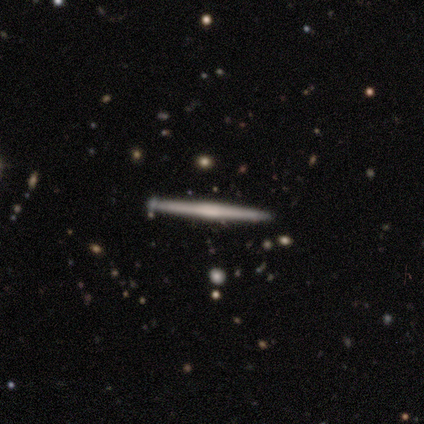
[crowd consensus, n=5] featured or disk 80%, smooth 20%, star or artifact 0%. Down the decision tree: edge-on disk — yes (100%); edge-on bulge — boxy (50%); merging — none (80%).